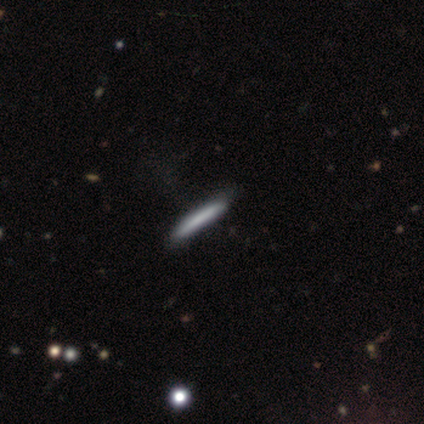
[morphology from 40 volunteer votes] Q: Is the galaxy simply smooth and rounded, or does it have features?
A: smooth — 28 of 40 (70%).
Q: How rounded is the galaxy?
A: cigar-shaped — 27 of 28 (96%).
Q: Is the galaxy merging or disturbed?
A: none — 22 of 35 (63%).